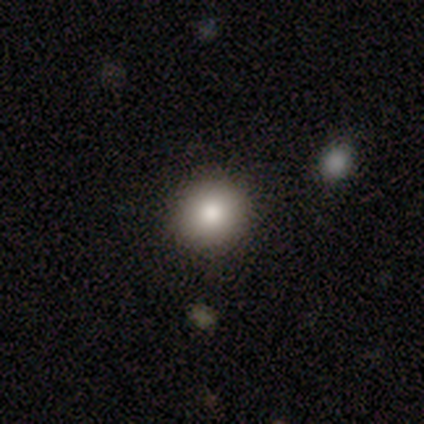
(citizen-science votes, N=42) smooth 83%, star or artifact 10%, featured or disk 7%. Down the decision tree: how rounded — round (86%); merging — none (92%).